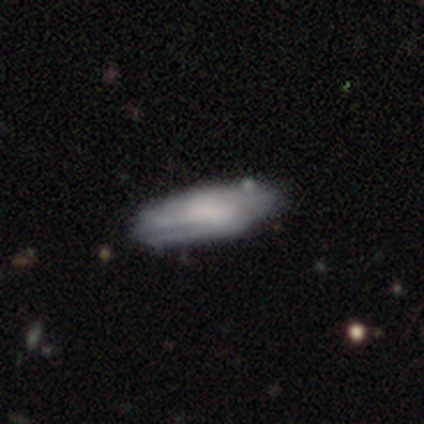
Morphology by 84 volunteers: Volunteers were most divided on "how rounded": in between: 59%, cigar-shaped: 39%, round: 2%. More confident: smooth or featured — smooth (58%); merging — none (57%).